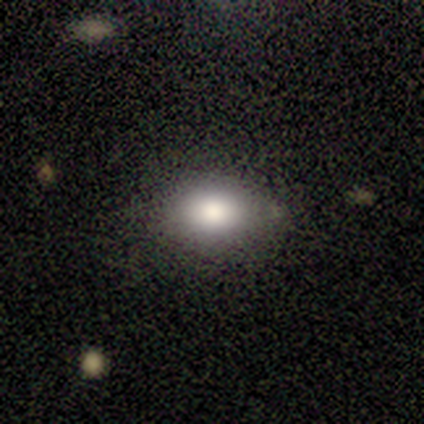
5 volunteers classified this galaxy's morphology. Q: Smooth or featured?
A: smooth (80%); runner-up: featured or disk (20%)
Q: How rounded?
A: in between (75%); runner-up: round (25%)
Q: Merging?
A: none (60%); runner-up: minor disturbance (40%)